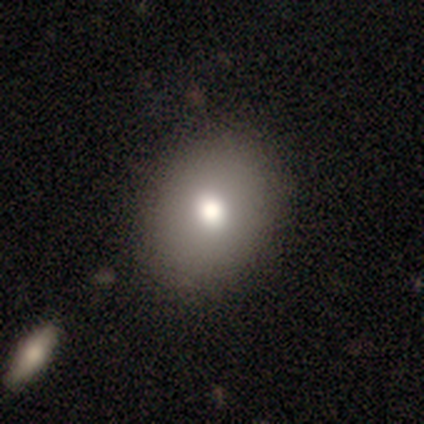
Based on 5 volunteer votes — smooth-or-featured: smooth: 80% | featured or disk: 20% | star or artifact: 0%
  how-rounded: round: 50% (tied) | in between: 50% (tied) | cigar-shaped: 0%
  merging: none: 80% | minor disturbance: 20% | major disturbance: 0% | merger: 0%